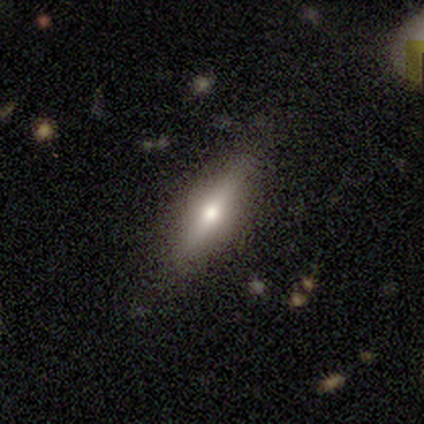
Smooth or featured? 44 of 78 (56%) said smooth. How rounded? 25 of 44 (57%) said cigar-shaped. Merging? 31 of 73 (42%) said none.